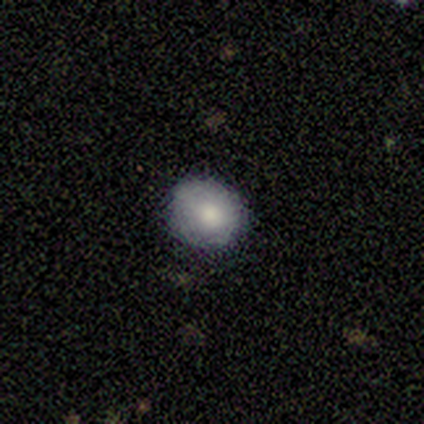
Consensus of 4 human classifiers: Volunteers were most divided on "merging": major disturbance: 50%, none: 25%, minor disturbance: 25%, merger: 0%. More confident: smooth or featured — smooth (100%); how rounded — round (75%).